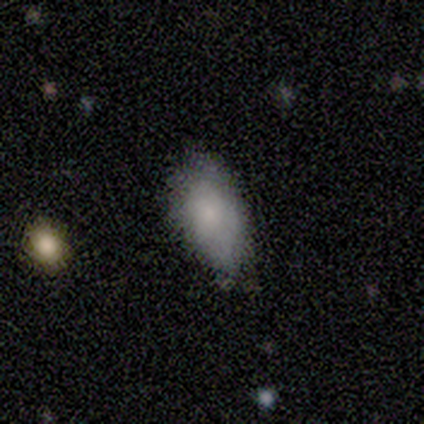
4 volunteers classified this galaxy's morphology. Overall: smooth (75%). How rounded: in between (100%). Merging: none (50%, tied with minor disturbance).